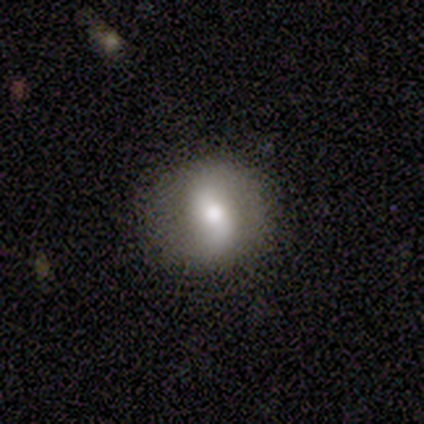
Smooth or featured: featured or disk — 60% (smooth — 40%)
Edge-on disk: no — 100%
Bar: strong — 67% (no — 33%)
Spiral arms: yes — 67% (no — 33%)
Spiral winding: medium — 100%
Spiral arm count: 2 — 100%
Bulge size: moderate — 67% (small — 33%)
Merging: none — 60% (minor disturbance — 40%)